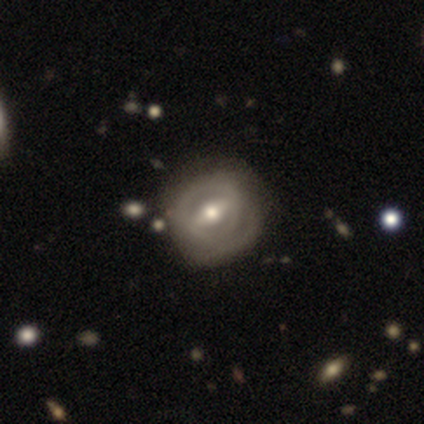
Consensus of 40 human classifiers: Smooth or featured: featured or disk — 60% (smooth — 38%)
Edge-on disk: no — 96% (yes — 4%)
Bar: strong — 52% (weak — 35%)
Spiral arms: yes — 57% (no — 43%)
Spiral winding: tight — 54% (medium — 38%)
Spiral arm count: can't tell — 46% (2 — 31%)
Bulge size: moderate — 96% (small — 4%)
Merging: none — 62% (minor disturbance — 33%)